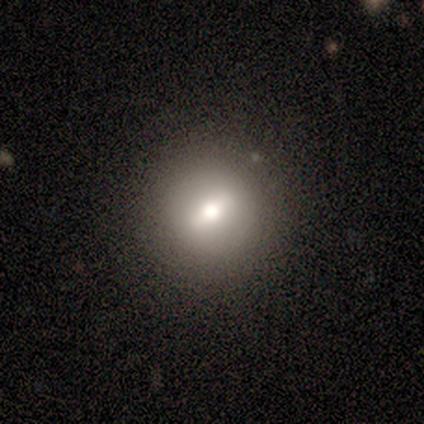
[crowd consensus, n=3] Smooth or featured? featured or disk (67%)
Edge-on disk? no (100%)
Bar? strong (50%, tied with weak)
Spiral arms? no (100%)
Bulge size? large (50%, tied with moderate)
Merging? none (100%)